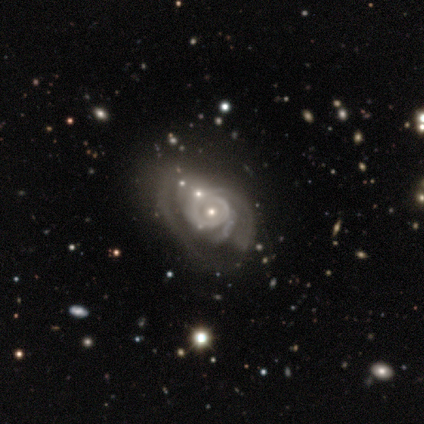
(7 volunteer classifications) featured or disk 100%, smooth 0%, star or artifact 0%. Down the decision tree: edge-on disk — no (100%); bar — no (86%); spiral arms — yes (86%); spiral arm count — can't tell (50%); spiral winding — medium (50%); bulge size — small (71%); merging — major disturbance (71%).